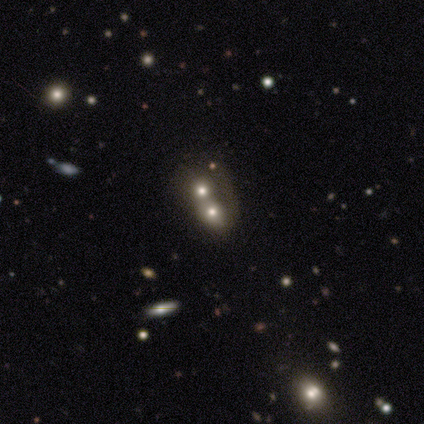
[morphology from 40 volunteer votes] Volunteers were most divided on "smooth or featured": smooth: 38%, star or artifact: 32%, featured or disk: 30%. More confident: merging — merger (70%); how rounded — round (60%).